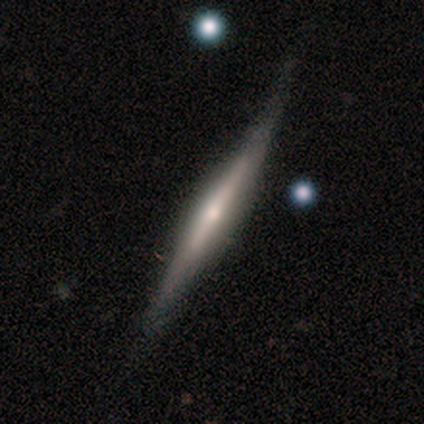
smooth-or-featured: featured or disk: 83% | smooth: 13% | star or artifact: 4%
  disk-edge-on: yes: 100% | no: 0%
    edge-on-bulge: rounded: 68% | none: 20% | boxy: 11%
  merging: none: 75% | minor disturbance: 24% | major disturbance: 2% | merger: 0%